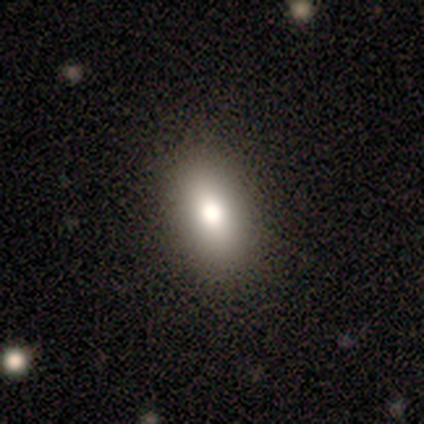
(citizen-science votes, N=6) Volunteers were most divided on "smooth or featured": smooth: 50%, star or artifact: 33%, featured or disk: 17%. More confident: how rounded — in between (100%); merging — none (100%).